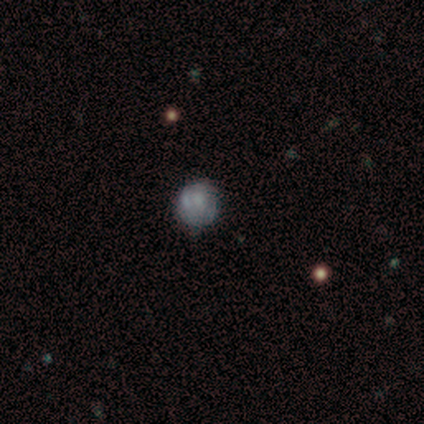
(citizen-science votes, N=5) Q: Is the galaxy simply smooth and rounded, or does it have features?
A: smooth — 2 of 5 (40%, tied with star or artifact).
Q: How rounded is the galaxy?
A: round — 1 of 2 (50%, tied with cigar-shaped).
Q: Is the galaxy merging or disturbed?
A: minor disturbance — 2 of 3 (67%).